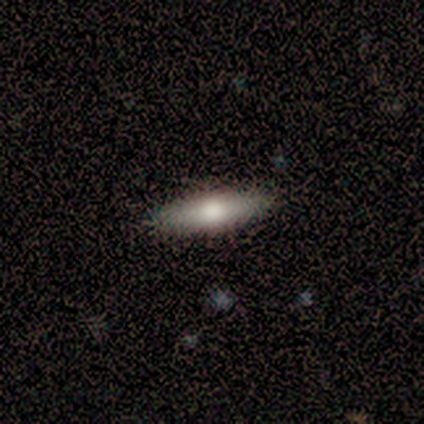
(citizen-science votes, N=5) Volunteers were most divided on "how rounded": cigar-shaped: 60%, in between: 40%, round: 0%. More confident: smooth or featured — smooth (100%); merging — none (100%).